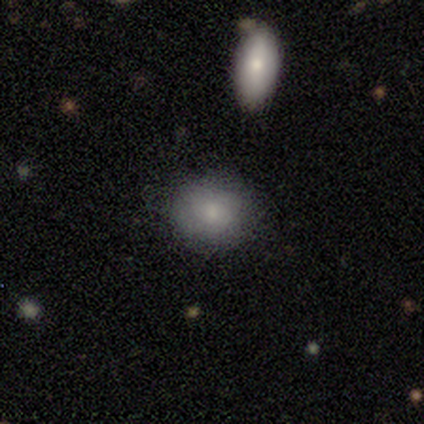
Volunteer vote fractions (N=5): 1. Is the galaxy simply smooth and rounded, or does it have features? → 80% smooth, 20% featured or disk, 0% star or artifact.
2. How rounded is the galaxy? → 100% round, 0% in between, 0% cigar-shaped.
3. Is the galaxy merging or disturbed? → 100% none, 0% minor disturbance, 0% major disturbance, 0% merger.